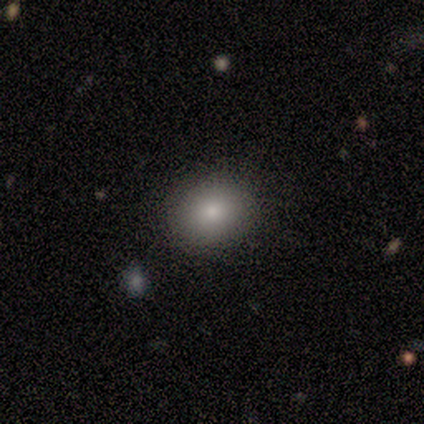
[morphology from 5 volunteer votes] Overall: smooth (80%). How rounded: round (75%). Merging: none (100%).